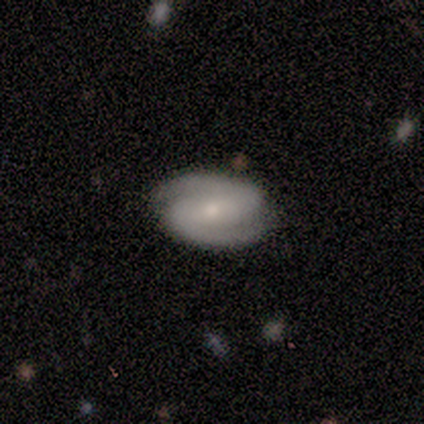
This is clearly a featured or disk galaxy (83%). It is clearly not viewed edge-on (100%). Bar: marginally strong (40%). Spiral arm pattern: clearly yes (97%). Spiral arm count: clearly 2 (97%). Spiral winding: possibly tight (53%). Central bulge: possibly moderate (51%). Merging: clearly none (92%).